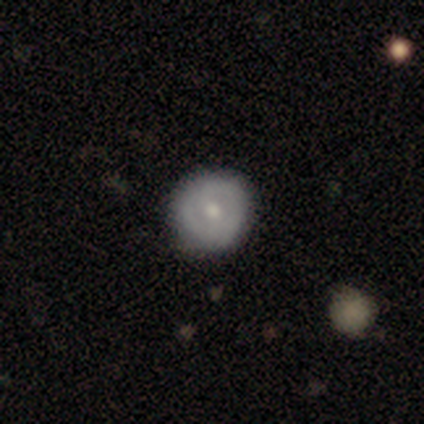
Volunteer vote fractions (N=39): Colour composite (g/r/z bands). It shows a featured or disk galaxy (54%) with no bar (71%), no spiral arms (62%) and a moderate central bulge (67%). Merging: none (82%).